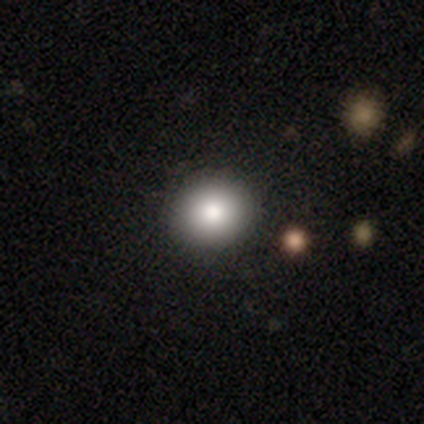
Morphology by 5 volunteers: Smooth or featured?
  - smooth: 80% *
  - featured or disk: 20%
  - star or artifact: 0%
How rounded?
  - round: 75% *
  - in between: 25%
  - cigar-shaped: 0%
Merging?
  - none: 80% *
  - minor disturbance: 20%
  - major disturbance: 0%
  - merger: 0%